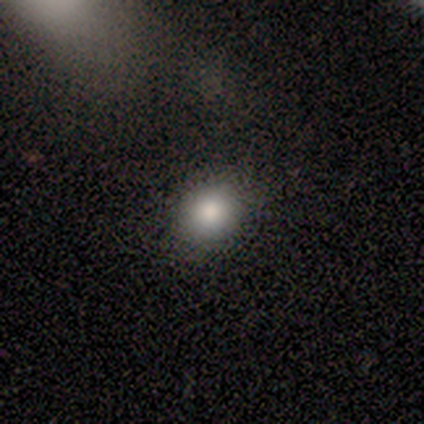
A smooth galaxy with no disk features (40%, tied with star or artifact) that is round (100%). Merging: none (100%).